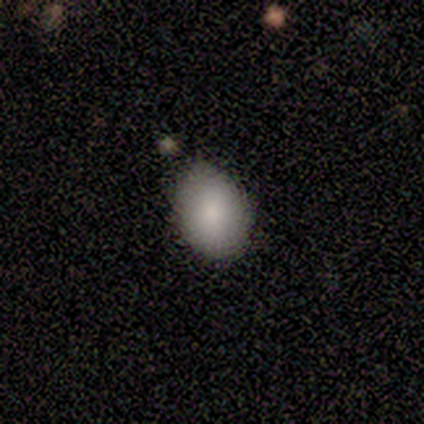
Smooth or featured: smooth — 71% (featured or disk — 14%)
How rounded: in between — 80% (round — 20%)
Merging: minor disturbance — 67% (none — 33%)